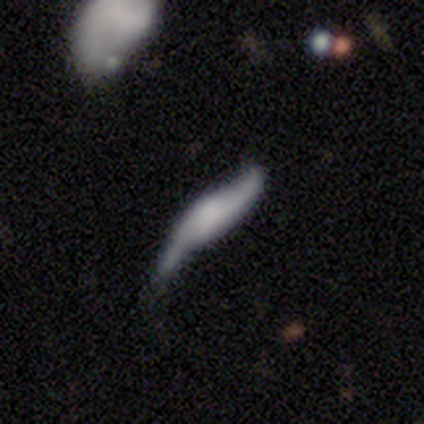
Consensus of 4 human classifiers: This appears to be a smooth galaxy with no disk features (50%, tied with featured or disk) that is cigar-shaped (100%). Merging: none (25%, tied with minor disturbance, major disturbance and merger).